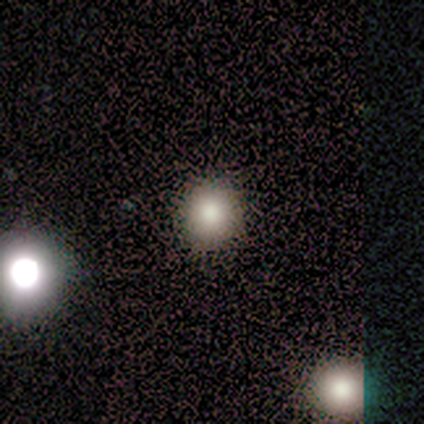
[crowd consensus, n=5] smooth_or_featured: smooth (p=0.80) [alt: star or artifact p=0.20]
how_rounded: round (p=1.00)
merging: none (p=1.00)